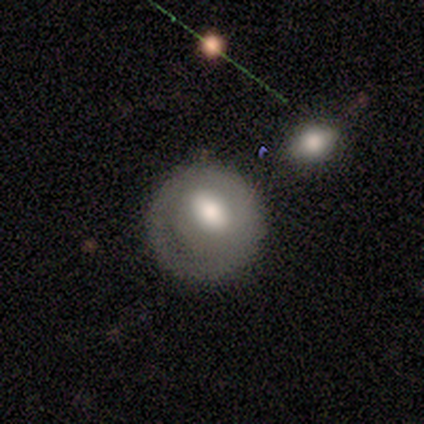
A smooth galaxy with no disk features (50%) that is round (100%).

Vote fractions:
- Smooth or featured? smooth: 50% / featured or disk: 25% / star or artifact: 25%
- How rounded? round: 100% / in between: 0% / cigar-shaped: 0%
- Merging? none: 67% / minor disturbance: 33% / major disturbance: 0% / merger: 0%